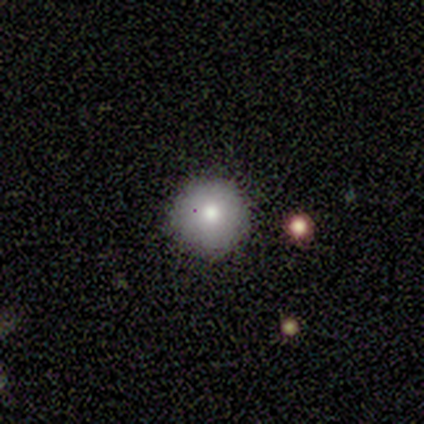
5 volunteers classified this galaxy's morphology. Q: Smooth or featured?
A: smooth (100%)
Q: How rounded?
A: round (100%)
Q: Merging?
A: none (80%); runner-up: minor disturbance (20%)